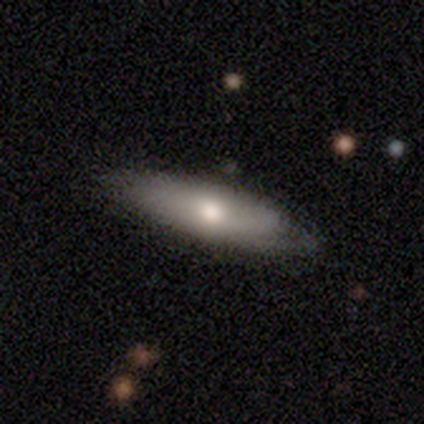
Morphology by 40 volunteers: Overall: smooth (55%; featured or disk 40%). How rounded: in between (55%; cigar-shaped 45%). Merging: none (74%).